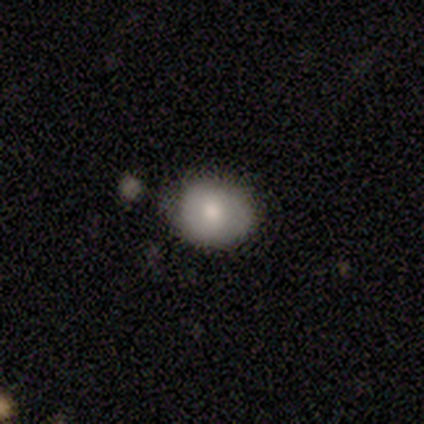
Volunteers were most divided on "how rounded": round: 75%, in between: 25%, cigar-shaped: 0%. More confident: smooth or featured — smooth (80%); merging — none (80%).